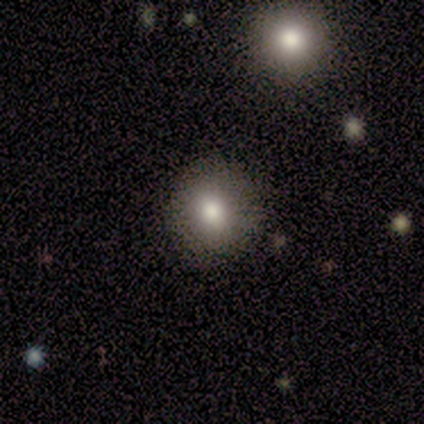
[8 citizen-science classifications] This appears to be a smooth galaxy with no disk features (75%) that is round (83%). Merging: none (67%).